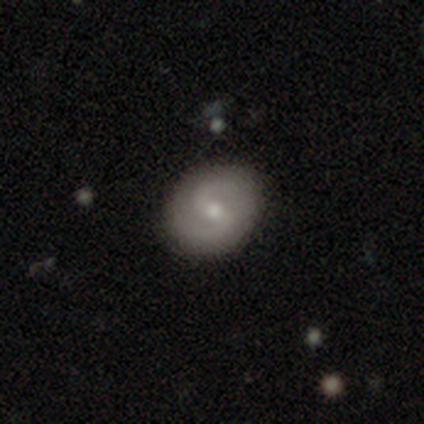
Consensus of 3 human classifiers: A featured or disk galaxy (67%) with a weak bar (100%), 2 (100%) medium (100%) spiral arms (100%) and a moderate central bulge (100%).

Vote fractions:
- Smooth or featured? featured or disk: 67% / smooth: 33% / star or artifact: 0%
- Edge-on disk? no: 100% / yes: 0%
- Bar? weak: 100% / strong: 0% / no: 0%
- Spiral arms? yes: 100% / no: 0%
- Spiral winding? medium: 100% / tight: 0% / loose: 0%
- Spiral arm count? 2: 100% / 1: 0% / 3: 0% / 4: 0% / more than 4: 0% / can't tell: 0%
- Bulge size? moderate: 100% / dominant: 0% / large: 0% / small: 0% / none: 0%
- Merging? none: 100% / minor disturbance: 0% / major disturbance: 0% / merger: 0%